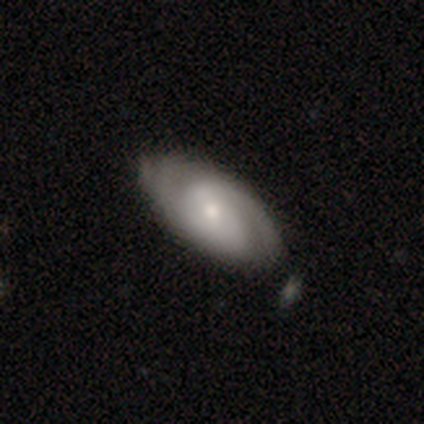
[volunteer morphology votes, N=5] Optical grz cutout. It shows a featured or disk galaxy (80%) with a weak bar (50%, tied with no), 2 (67%) tight (67%) spiral arms (75%) and a small central bulge (75%). Merging: none (75%).